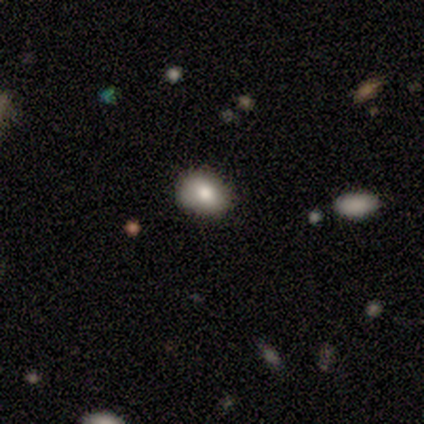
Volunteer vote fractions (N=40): A smooth galaxy with no disk features (72%) that is in between round and cigar-shaped (72%).

Vote fractions:
- Smooth or featured? smooth: 72% / featured or disk: 18% / star or artifact: 10%
- How rounded? in between: 72% / round: 28% / cigar-shaped: 0%
- Merging? none: 78% / minor disturbance: 22% / major disturbance: 0% / merger: 0%